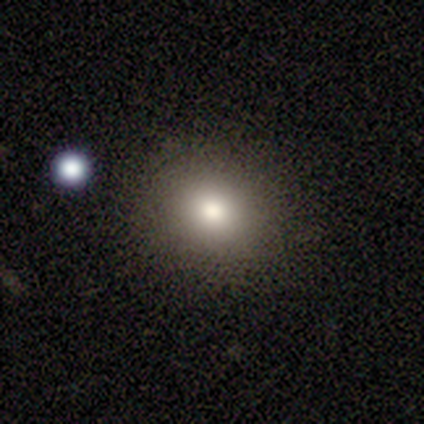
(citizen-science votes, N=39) Smooth or featured: smooth — 85% (featured or disk — 8%)
How rounded: round — 70% (in between — 27%)
Merging: none — 72% (minor disturbance — 6%)